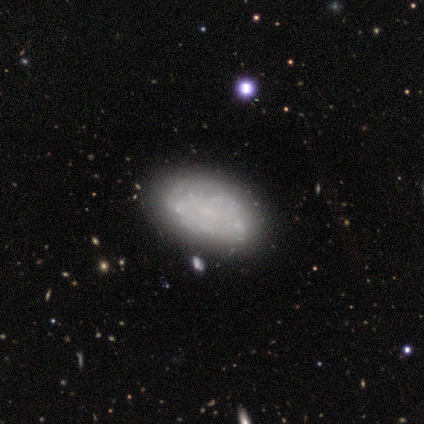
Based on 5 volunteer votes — Smooth or featured? 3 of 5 (60%) said featured or disk. Edge-on disk? 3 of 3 (100%) said no. Bar? 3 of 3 (100%) said no. Spiral arms? 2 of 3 (67%) said no. Bulge size? 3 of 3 (100%) said none. Merging? 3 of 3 (100%) said none.